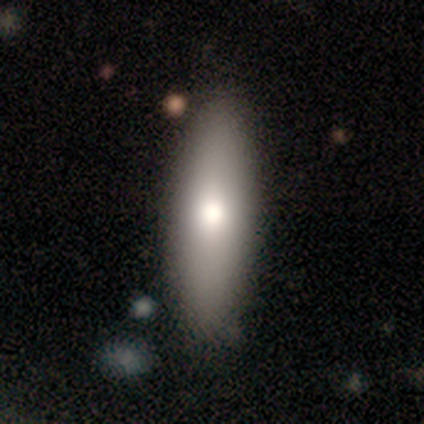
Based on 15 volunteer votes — This is likely a smooth galaxy (67%). How rounded: possibly in between (50%, tied with cigar-shaped). Merging: likely none (71%).